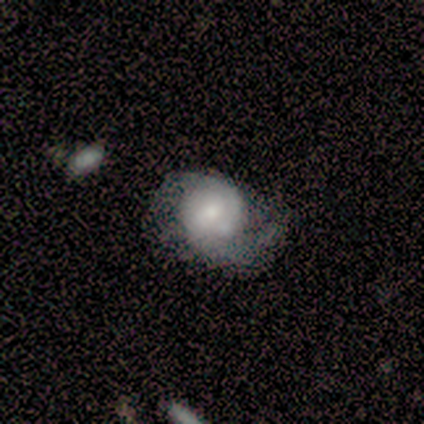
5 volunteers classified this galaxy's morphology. This appears to be a featured or disk galaxy (60%) with no bar (100%), 2 (100%) tight (50%, tied with medium) spiral arms (67%) and a large central bulge (33%, tied with moderate and small). Merging: major disturbance (40%).